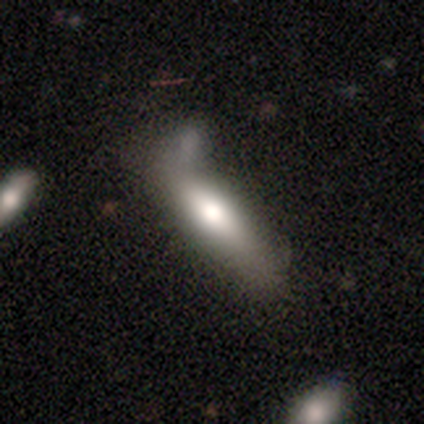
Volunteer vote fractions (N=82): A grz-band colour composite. It shows a smooth galaxy with no disk features (67%) that is cigar-shaped (58%). Merging: none (47%).